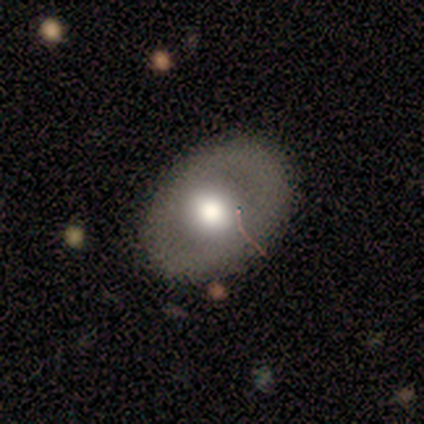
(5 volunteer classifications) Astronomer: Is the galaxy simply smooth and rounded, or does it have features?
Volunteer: smooth — 80%.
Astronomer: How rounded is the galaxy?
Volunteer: in between — 75%.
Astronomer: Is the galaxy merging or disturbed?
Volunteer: none — 80%.